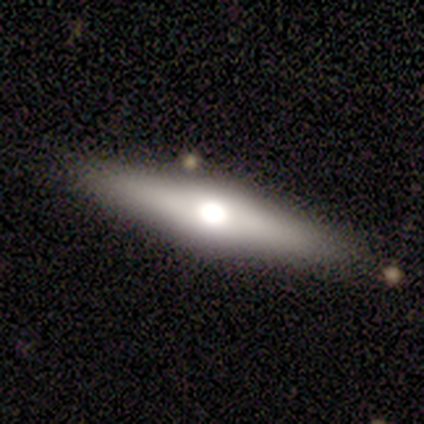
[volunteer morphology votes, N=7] This is likely a featured or disk galaxy (71%). It is clearly viewed edge-on (100%). Edge-on bulge: clearly rounded (100%). Merging: clearly none (100%).